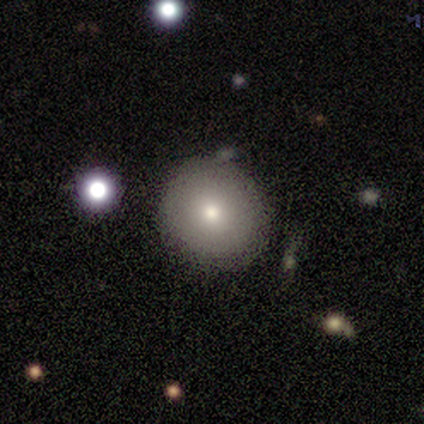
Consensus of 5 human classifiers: smooth_or_featured: smooth (p=0.80) [alt: featured or disk p=0.20]
how_rounded: round (p=1.00)
merging: none (p=0.80) [alt: minor disturbance p=0.20]